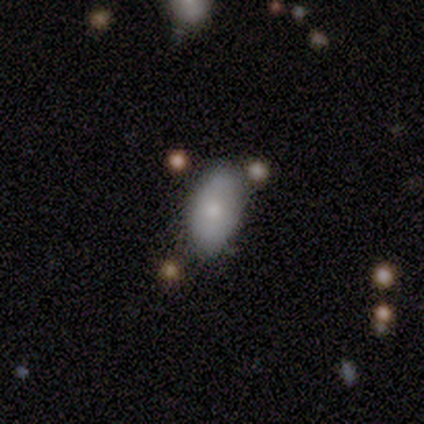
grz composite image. It shows a smooth galaxy with no disk features (75%) that is in between round and cigar-shaped (87%). Merging: none (66%).